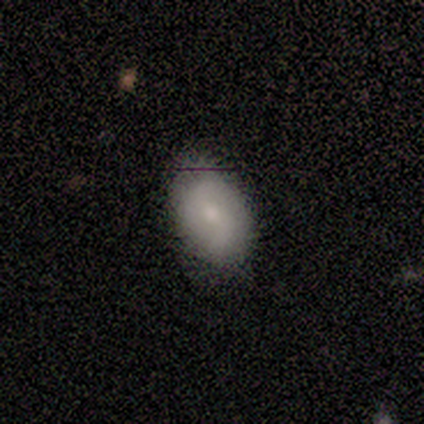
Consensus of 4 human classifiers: smooth_or_featured: smooth (p=0.50) [tied with: featured or disk p=0.50]
how_rounded: in between (p=1.00)
merging: none (p=0.50) [alt: minor disturbance p=0.25]